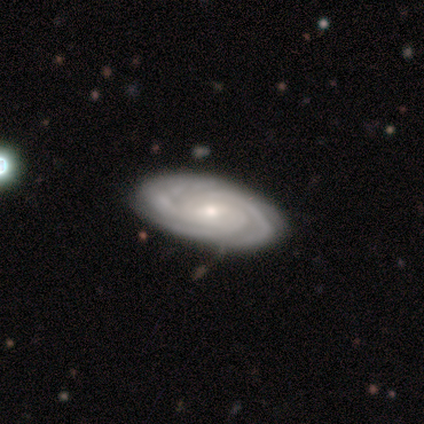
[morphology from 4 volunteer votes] A featured or disk galaxy (75%) with no bar (67%), 4 (67%) tight (100%) spiral arms (100%) and a moderate central bulge (67%).

Vote fractions:
- Smooth or featured? featured or disk: 75% / smooth: 25% / star or artifact: 0%
- Edge-on disk? no: 100% / yes: 0%
- Bar? no: 67% / weak: 33% / strong: 0%
- Spiral arms? yes: 100% / no: 0%
- Spiral winding? tight: 100% / medium: 0% / loose: 0%
- Spiral arm count? 4: 67% / more than 4: 33% / 1: 0% / 2: 0% / 3: 0% / can't tell: 0%
- Bulge size? moderate: 67% / small: 33% / dominant: 0% / large: 0% / none: 0%
- Merging? none: 100% / minor disturbance: 0% / major disturbance: 0% / merger: 0%